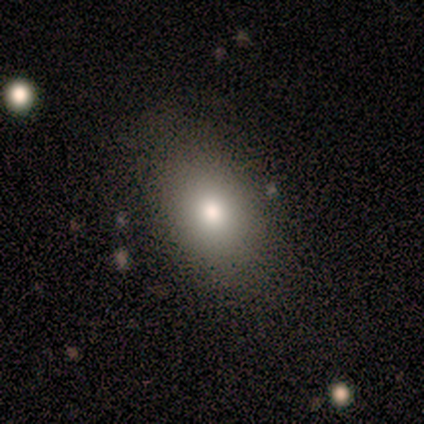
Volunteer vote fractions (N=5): smooth-or-featured: smooth: 100% | featured or disk: 0% | star or artifact: 0%
  how-rounded: in between: 80% | round: 20% | cigar-shaped: 0%
  merging: none: 80% | minor disturbance: 20% | major disturbance: 0% | merger: 0%